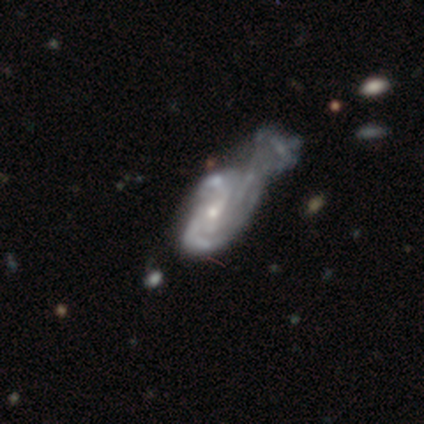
Smooth or featured? 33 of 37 (89%) said featured or disk. Edge-on disk? 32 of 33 (97%) said no. Bar? 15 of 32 (47%) said no. Spiral arms? 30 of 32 (94%) said yes. Spiral winding? 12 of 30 (40%) said medium. Spiral arm count? 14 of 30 (47%) said 2. Bulge size? 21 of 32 (66%) said small. Merging? 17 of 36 (47%) said merger.